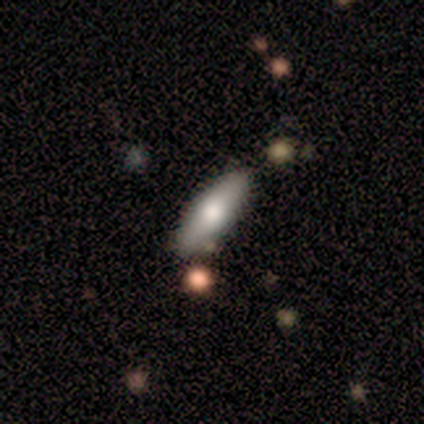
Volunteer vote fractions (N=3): Smooth or featured? smooth (100%)
How rounded? cigar-shaped (67%)
Merging? none (67%)